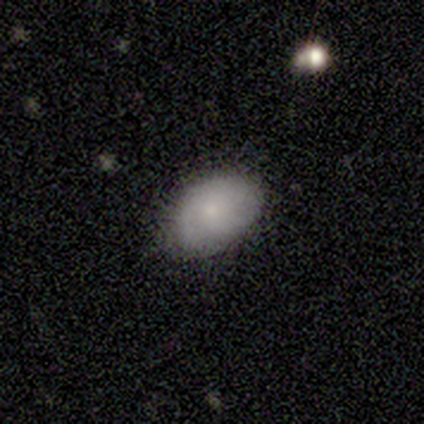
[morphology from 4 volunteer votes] Smooth or featured? 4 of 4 (100%) said smooth. How rounded? 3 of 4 (75%) said in between. Merging? 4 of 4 (100%) said none.